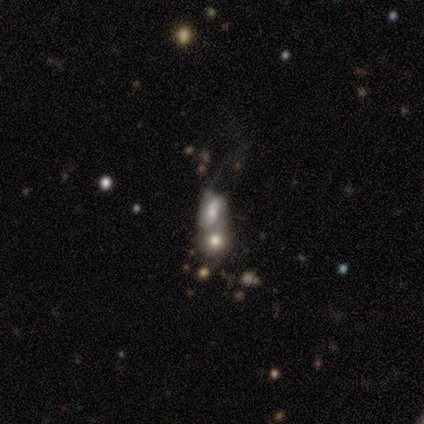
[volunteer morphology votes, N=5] Smooth or featured: featured or disk — 60% (star or artifact — 40%)
Edge-on disk: no — 100%
Bar: no — 100%
Spiral arms: yes — 100%
Spiral winding: tight — 33% (tied with medium — 33%; loose — 33%)
Spiral arm count: 2 — 100%
Bulge size: large — 33% (tied with moderate — 33%; none — 33%)
Merging: merger — 67% (none — 33%)